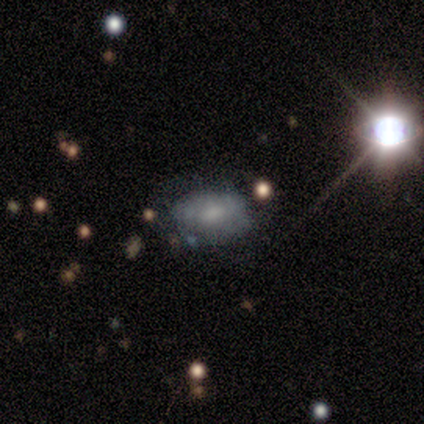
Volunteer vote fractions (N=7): smooth_or_featured: featured or disk (p=0.43) [alt: smooth p=0.29]
disk_edge_on: no (p=1.00)
bar: no (p=1.00)
has_spiral_arms: no (p=0.67) [alt: yes p=0.33]
bulge_size: small (p=0.67) [alt: moderate p=0.33]
merging: none (p=0.60) [alt: minor disturbance p=0.40]